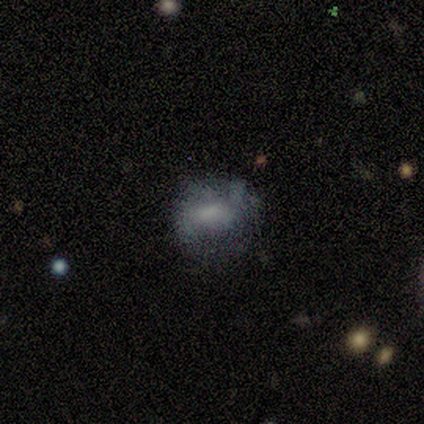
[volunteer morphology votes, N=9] type=featured or disk (56%); edge-on=no (100%); bar=weak (60%); spiral arms=yes (60%); winding=loose (67%); arm count=2 (67%); bulge=moderate (40%, tied with none); merging=none (44%).